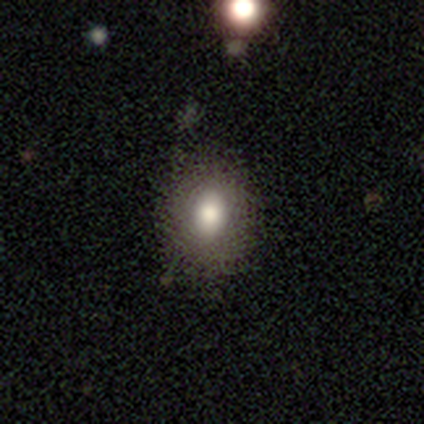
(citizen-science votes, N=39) A smooth galaxy with no disk features (72%) that is in between round and cigar-shaped (68%).

Vote fractions:
- Smooth or featured? smooth: 72% / featured or disk: 15% / star or artifact: 13%
- How rounded? in between: 68% / round: 32% / cigar-shaped: 0%
- Merging? none: 79% / minor disturbance: 18% / merger: 3% / major disturbance: 0%